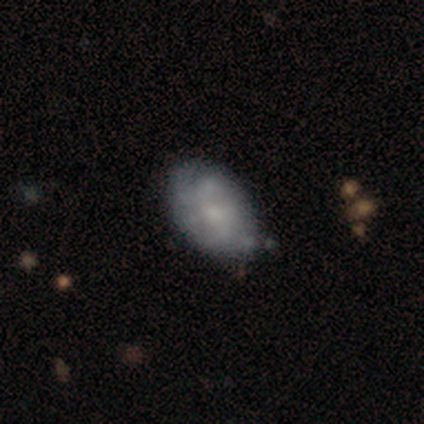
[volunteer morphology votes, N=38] A featured or disk galaxy (50%) with no bar (83%), no spiral arms (67%) and a small central bulge (44%). Merging: none (58%).